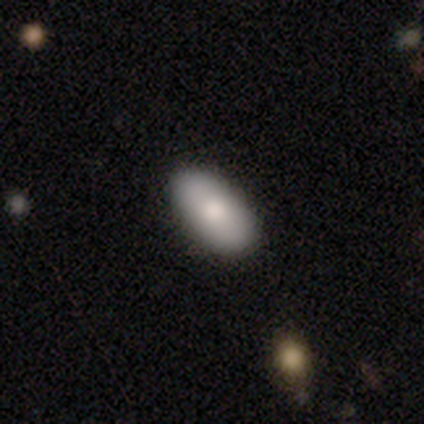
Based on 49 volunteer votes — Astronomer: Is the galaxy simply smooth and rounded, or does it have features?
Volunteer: smooth — 88%.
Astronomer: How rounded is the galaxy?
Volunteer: in between — 95%.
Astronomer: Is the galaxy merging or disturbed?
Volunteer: none — 89%.